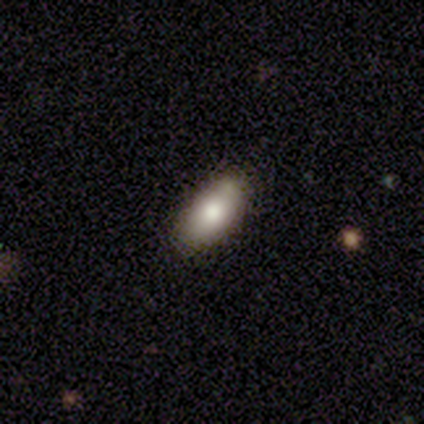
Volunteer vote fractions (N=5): A smooth galaxy with no disk features (60%) that is in between round and cigar-shaped (100%).

Vote fractions:
- Smooth or featured? smooth: 60% / featured or disk: 40% / star or artifact: 0%
- How rounded? in between: 100% / round: 0% / cigar-shaped: 0%
- Merging? none: 80% / major disturbance: 20% / minor disturbance: 0% / merger: 0%